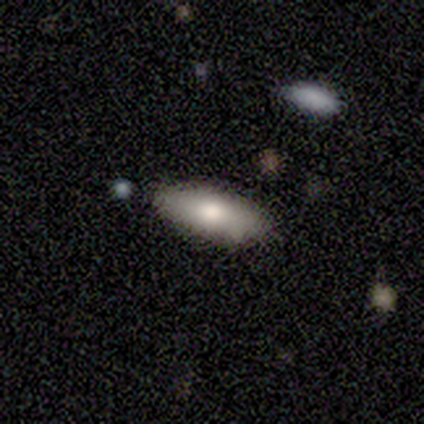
Smooth or featured? 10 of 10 (100%) said smooth. How rounded? 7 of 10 (70%) said in between. Merging? 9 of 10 (90%) said none.